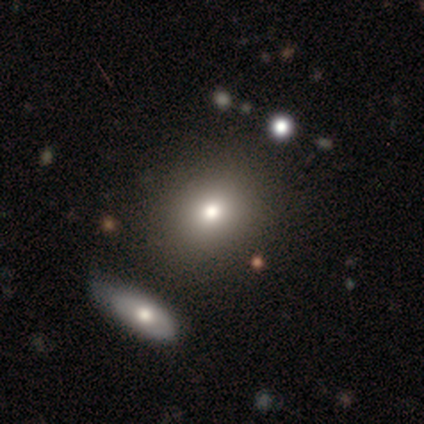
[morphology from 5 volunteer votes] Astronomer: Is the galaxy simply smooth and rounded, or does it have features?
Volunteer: smooth — 100%.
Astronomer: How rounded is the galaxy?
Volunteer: in between — 60% (runner-up: round, 40%).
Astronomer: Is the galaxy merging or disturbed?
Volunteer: none — 40%, tied with merger at 40%.